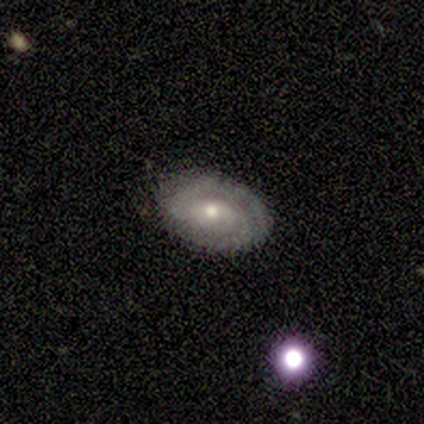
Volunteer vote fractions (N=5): Morphology: type=featured or disk (80%); edge-on=no (100%); bar=strong (50%); spiral arms=yes (100%); winding=tight (50%, tied with loose); arm count=2 (50%, tied with can't tell); bulge=moderate (50%, tied with small); merging=none (80%).